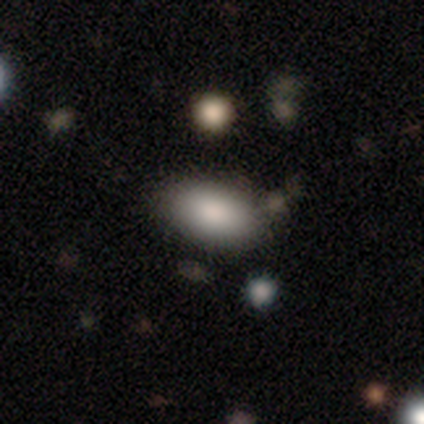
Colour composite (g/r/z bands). It shows a smooth galaxy with no disk features (100%) that is in between round and cigar-shaped (100%). Merging: none (80%).